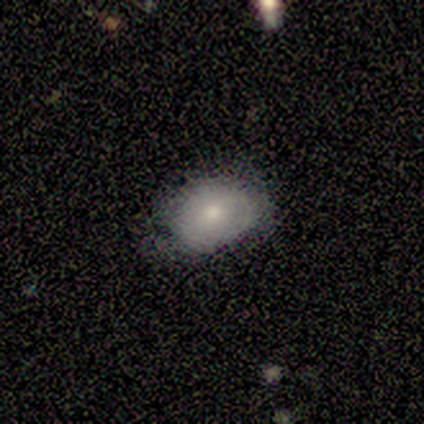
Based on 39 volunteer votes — Smooth or featured? 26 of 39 (67%) said smooth. How rounded? 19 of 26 (73%) said in between. Merging? 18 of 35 (51%) said none.